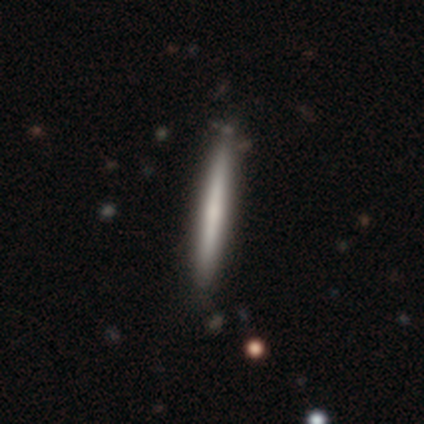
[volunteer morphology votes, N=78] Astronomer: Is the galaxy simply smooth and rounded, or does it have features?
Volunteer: smooth — 51% (runner-up: featured or disk, 46%).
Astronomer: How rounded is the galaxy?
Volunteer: cigar-shaped — 100%.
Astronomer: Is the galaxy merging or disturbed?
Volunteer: none — 38%.